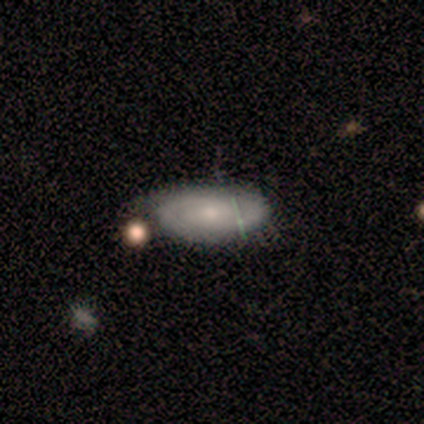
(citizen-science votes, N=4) A featured or disk galaxy (75%) with no bar (67%), 2 (100%) tight (50%, tied with medium) spiral arms (67%) and a small central bulge (100%). Merging: none (50%, tied with minor disturbance).